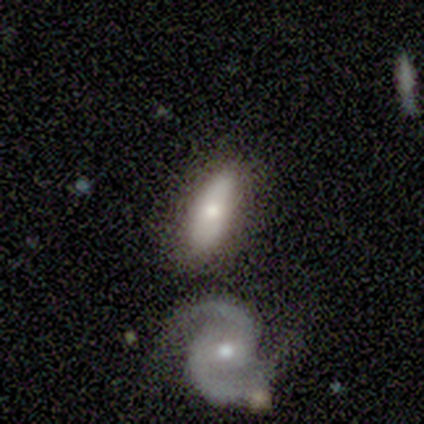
Smooth or featured: smooth — 60% (featured or disk — 20%)
How rounded: in between — 67% (cigar-shaped — 33%)
Merging: none — 75% (major disturbance — 25%)